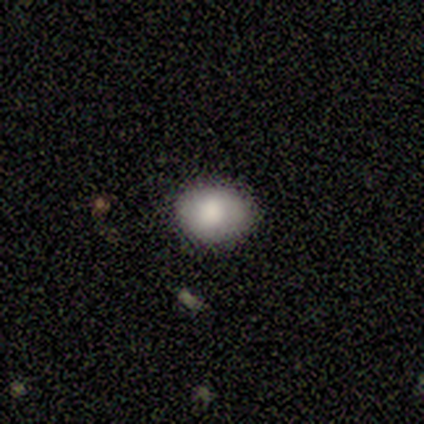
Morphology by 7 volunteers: smooth 100%, featured or disk 0%, star or artifact 0%. Down the decision tree: how rounded — in between (57%); merging — none (100%).